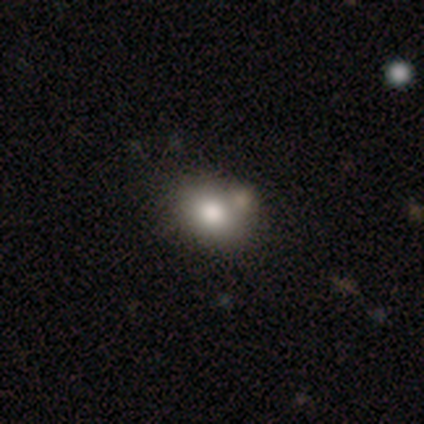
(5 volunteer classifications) smooth-or-featured: smooth: 100% | featured or disk: 0% | star or artifact: 0%
  how-rounded: round: 80% | in between: 20% | cigar-shaped: 0%
  merging: merger: 60% | none: 20% | minor disturbance: 20% | major disturbance: 0%